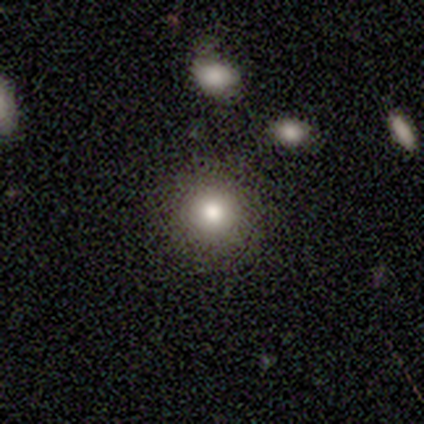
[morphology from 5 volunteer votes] A smooth galaxy with no disk features (80%) that is round (75%). Merging: none (100%).